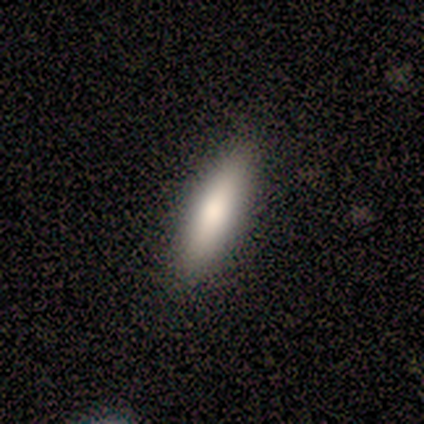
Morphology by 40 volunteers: smooth-or-featured: smooth: 70% | featured or disk: 22% | star or artifact: 8%
  how-rounded: in between: 54% | cigar-shaped: 46% | round: 0%
  merging: none: 89% | minor disturbance: 8% | merger: 3% | major disturbance: 0%